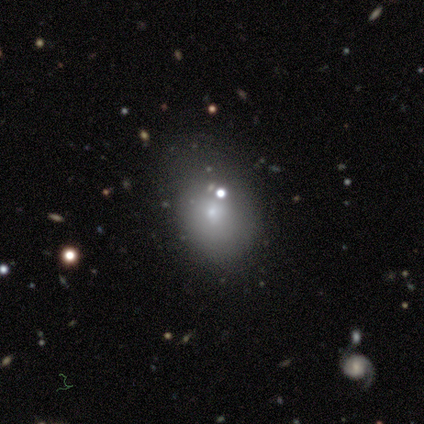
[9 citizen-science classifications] Morphology: type=smooth (100%); roundness=in between (78%); merging=minor disturbance (56%).